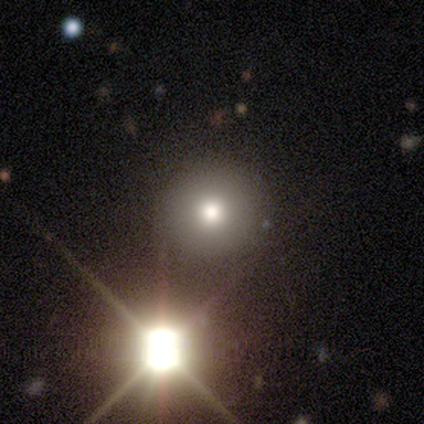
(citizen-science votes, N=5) Smooth or featured: star or artifact — 60% (smooth — 40%)